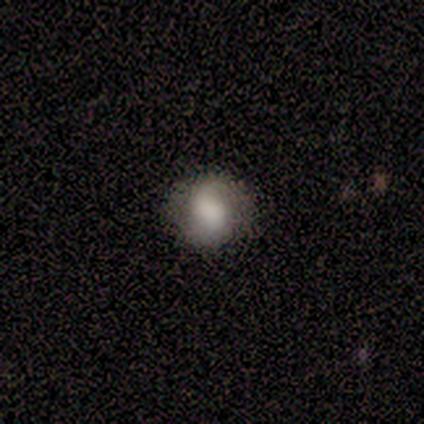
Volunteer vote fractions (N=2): Q: Smooth or featured?
A: featured or disk (50%); tied with: star or artifact (50%)
Q: Edge-on disk?
A: no (100%)
Q: Bar?
A: no (100%)
Q: Spiral arms?
A: yes (100%)
Q: Spiral winding?
A: loose (100%)
Q: Spiral arm count?
A: 1 (100%)
Q: Bulge size?
A: large (100%)
Q: Merging?
A: none (100%)